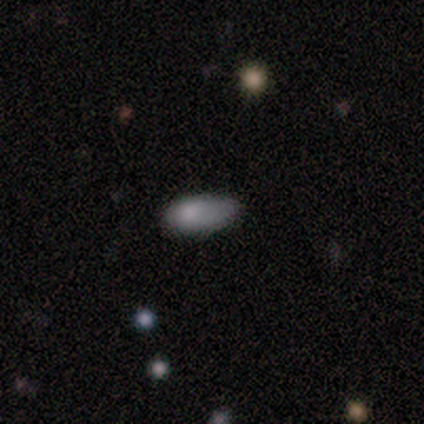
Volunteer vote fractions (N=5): Volunteers were most divided on "merging": minor disturbance: 60%, none: 40%, major disturbance: 0%, merger: 0%. More confident: smooth or featured — smooth (100%); how rounded — in between (80%).